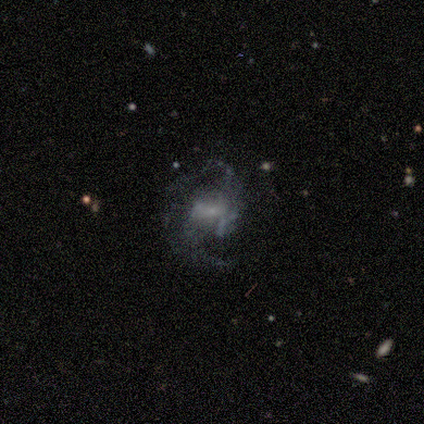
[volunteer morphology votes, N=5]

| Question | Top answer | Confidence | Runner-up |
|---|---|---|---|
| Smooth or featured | featured or disk | 100% | — |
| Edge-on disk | no | 100% | — |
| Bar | no | 60% | strong (20%) |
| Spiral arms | yes | 100% | — |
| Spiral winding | medium | 40% | tied: loose (40%) |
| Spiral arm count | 2 | 80% | 3 (20%) |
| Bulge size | small | 40% | large (20%) |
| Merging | none | 60% | minor disturbance (20%) |